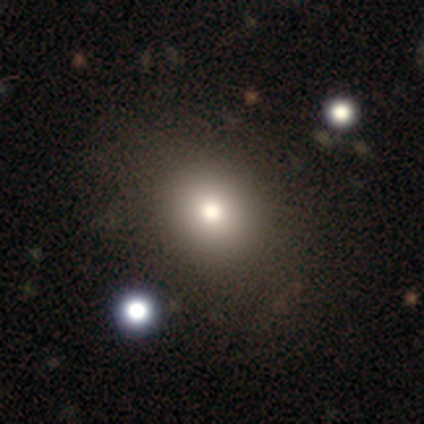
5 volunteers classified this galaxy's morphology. A smooth galaxy with no disk features (60%) that is in between round and cigar-shaped (67%). Merging: none (80%).